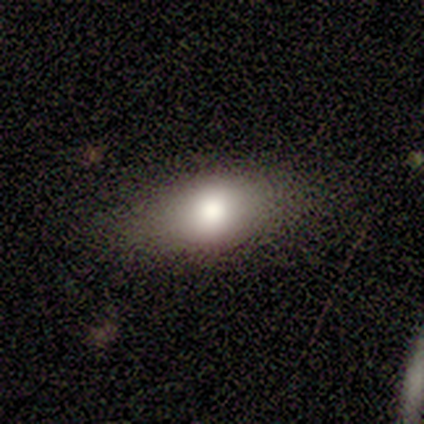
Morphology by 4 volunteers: Smooth or featured: smooth — 75% (star or artifact — 25%)
How rounded: in between — 100%
Merging: none — 100%